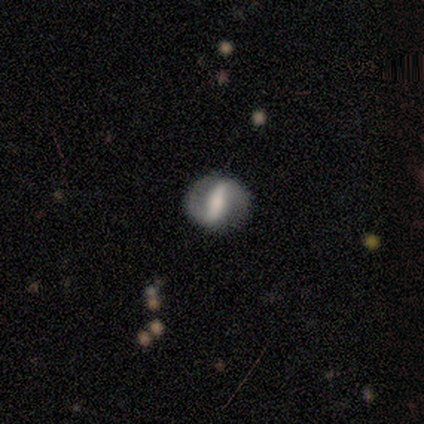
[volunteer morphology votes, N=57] Q: Smooth or featured?
A: featured or disk (82%); runner-up: smooth (11%)
Q: Edge-on disk?
A: no (96%); runner-up: yes (4%)
Q: Bar?
A: strong (84%); runner-up: weak (11%)
Q: Spiral arms?
A: yes (73%); runner-up: no (27%)
Q: Spiral winding?
A: tight (39%); tied with: medium (39%)
Q: Spiral arm count?
A: 2 (94%); runner-up: can't tell (6%)
Q: Bulge size?
A: moderate (51%); runner-up: small (20%)
Q: Merging?
A: none (83%); runner-up: minor disturbance (13%)